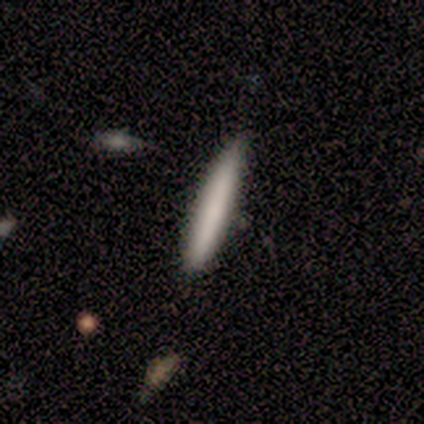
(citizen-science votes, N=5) smooth 80%, star or artifact 20%, featured or disk 0%. Down the decision tree: how rounded — cigar-shaped (100%); merging — none (75%).